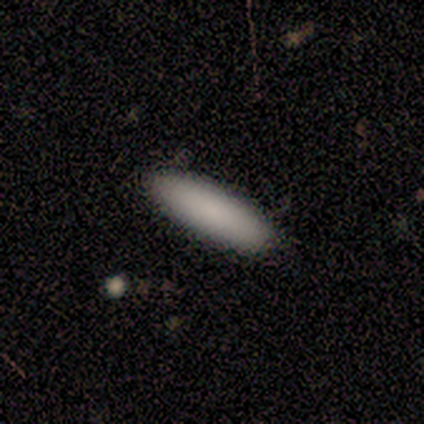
smooth-or-featured: smooth: 100% | featured or disk: 0% | star or artifact: 0%
  how-rounded: cigar-shaped: 67% | in between: 33% | round: 0%
  merging: none: 100% | minor disturbance: 0% | major disturbance: 0% | merger: 0%